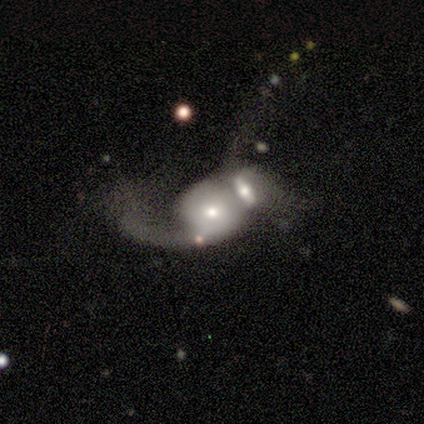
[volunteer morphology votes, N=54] A featured or disk galaxy (72%) with no bar (74%), 1 (50%) loose (75%) spiral arms (63%) and a moderate central bulge (63%).

Vote fractions:
- Smooth or featured? featured or disk: 72% / smooth: 20% / star or artifact: 7%
- Edge-on disk? no: 97% / yes: 3%
- Bar? no: 74% / weak: 16% / strong: 11%
- Spiral arms? yes: 63% / no: 37%
- Spiral winding? loose: 75% / tight: 12% / medium: 12%
- Spiral arm count? 1: 50% / 2: 33% / 3: 8% / can't tell: 8% / 4: 0% / more than 4: 0%
- Bulge size? moderate: 63% / small: 26% / large: 8% / dominant: 3% / none: 0%
- Merging? merger: 86% / major disturbance: 8% / minor disturbance: 4% / none: 2%